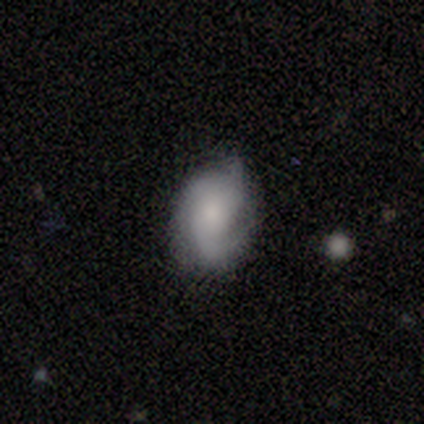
Smooth or featured? 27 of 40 (68%) said featured or disk. Edge-on disk? 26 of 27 (96%) said no. Bar? 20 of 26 (77%) said no. Spiral arms? 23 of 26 (88%) said yes. Spiral winding? 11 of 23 (48%) said medium. Spiral arm count? 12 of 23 (52%) said 2. Bulge size? 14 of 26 (54%) said moderate. Merging? 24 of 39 (62%) said none.